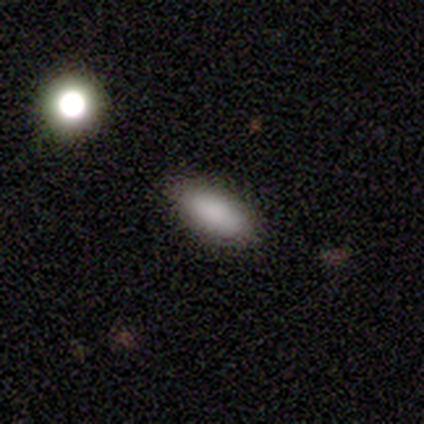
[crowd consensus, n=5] Smooth or featured: smooth — 80% (star or artifact — 20%)
How rounded: in between — 75% (cigar-shaped — 25%)
Merging: none — 75% (minor disturbance — 25%)